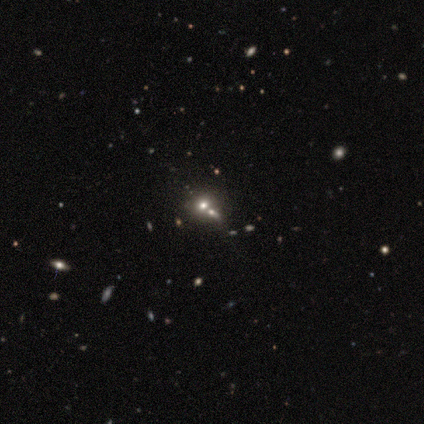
smooth-or-featured: smooth: 50% | featured or disk: 25% | star or artifact: 25%
  how-rounded: round: 100% | in between: 0% | cigar-shaped: 0%
  merging: none: 33% (tied) | minor disturbance: 33% (tied) | merger: 33% (tied) | major disturbance: 0%